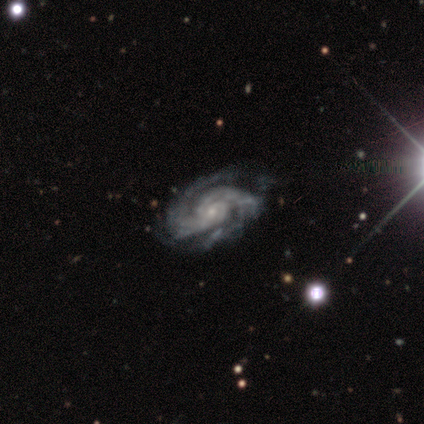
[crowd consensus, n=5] Volunteers were most divided on "spiral arm count" (2-way tie): 2: 40%, 3: 40%, 4: 20%, 1: 0%, more than 4: 0%, can't tell: 0%. More confident: smooth or featured — featured or disk (100%); edge-on disk — no (100%); spiral arms — yes (100%); bulge size — small (100%); merging — none (100%); bar — no (80%); spiral winding — medium (60%).